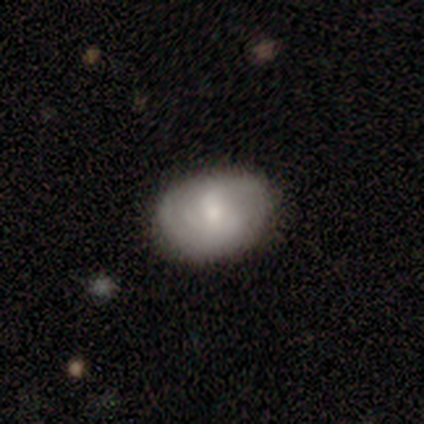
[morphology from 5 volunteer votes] Overall: featured or disk (80%). Edge-on disk: no (100%). Bar: weak (75%). Spiral arms: yes (50%, tied with no). Spiral arm count: 3 (50%, tied with can't tell). Spiral winding: medium (100%). Bulge size: moderate (50%, tied with small). Merging: none (80%).